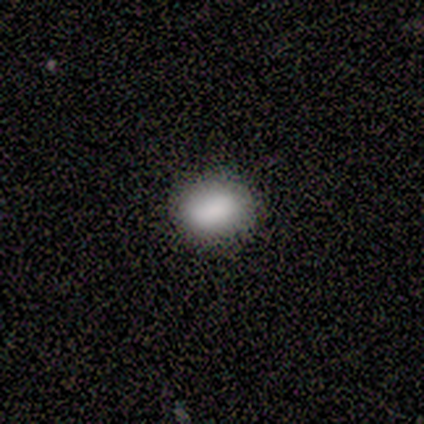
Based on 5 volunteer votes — smooth_or_featured: smooth (p=0.60) [alt: featured or disk p=0.20]
how_rounded: in between (p=1.00)
merging: none (p=0.75) [alt: minor disturbance p=0.25]